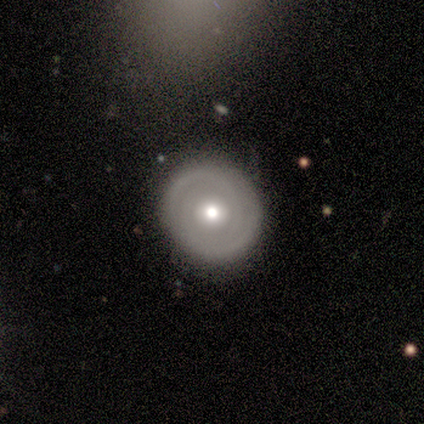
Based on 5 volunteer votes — Overall: featured or disk (100%). Edge-on disk: no (100%). Bar: no (100%). Spiral arms: yes (80%). Spiral arm count: 2 (50%; 3 25%). Spiral winding: tight (75%). Bulge size: moderate (80%). Merging: none (100%).